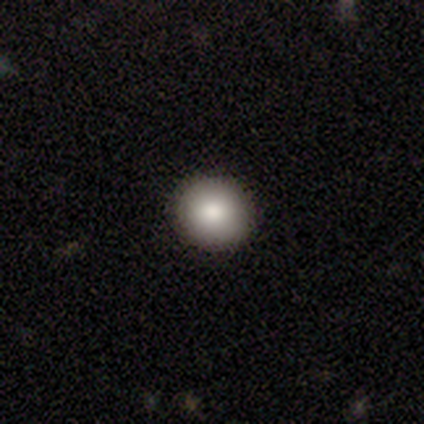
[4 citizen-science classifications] Smooth or featured: smooth — 75% (featured or disk — 25%)
How rounded: round — 100%
Merging: none — 100%